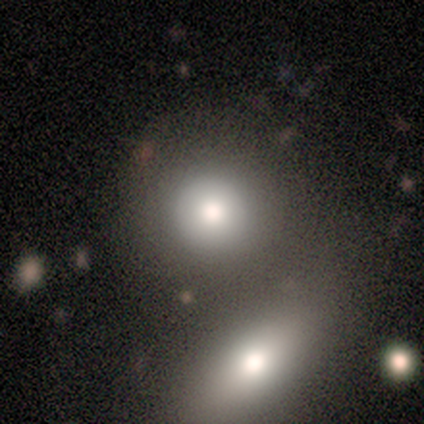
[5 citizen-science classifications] A smooth galaxy with no disk features (60%) that is round (100%). Merging: none (75%).